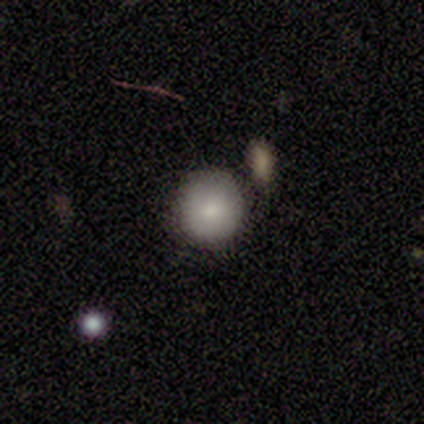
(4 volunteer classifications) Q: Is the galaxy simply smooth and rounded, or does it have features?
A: smooth — 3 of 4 (75%).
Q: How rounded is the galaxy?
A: round — 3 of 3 (100%).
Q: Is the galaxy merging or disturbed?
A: none — 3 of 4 (75%).